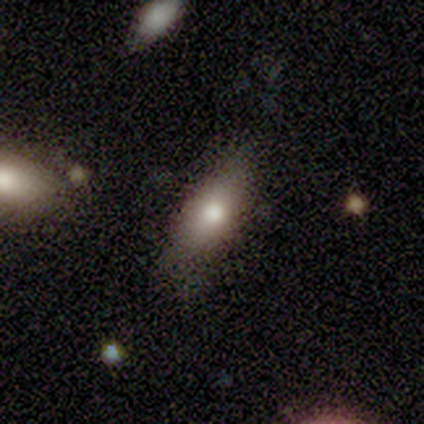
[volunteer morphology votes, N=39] Smooth or featured? 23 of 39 (59%) said smooth. How rounded? 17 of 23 (74%) said in between. Merging? 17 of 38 (45%) said none.